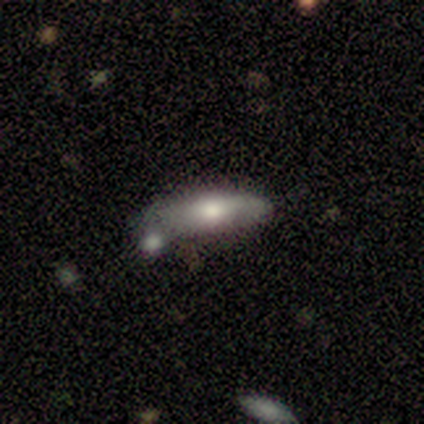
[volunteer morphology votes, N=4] Volunteers were most divided on "bar" (2-way tie): weak: 50%, no: 50%, strong: 0%; "spiral winding" (2-way tie): tight: 50%, loose: 50%, medium: 0%; "spiral arm count" (2-way tie): 1: 50%, 2: 50%, 3: 0%, 4: 0%, more than 4: 0%, can't tell: 0%. More confident: spiral arms — yes (100%); bulge size — moderate (100%); smooth or featured — featured or disk (75%); merging — none (75%); edge-on disk — no (67%).